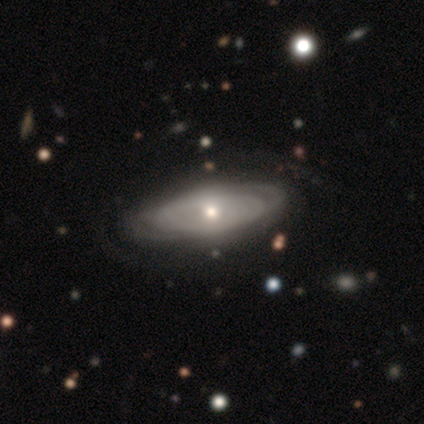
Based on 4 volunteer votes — Morphology: type=featured or disk (100%); edge-on=no (100%); bar=no (100%); spiral arms=yes (50%, tied with no); winding=tight (100%); arm count=2 (50%, tied with can't tell); bulge=moderate (75%); merging=none (75%).